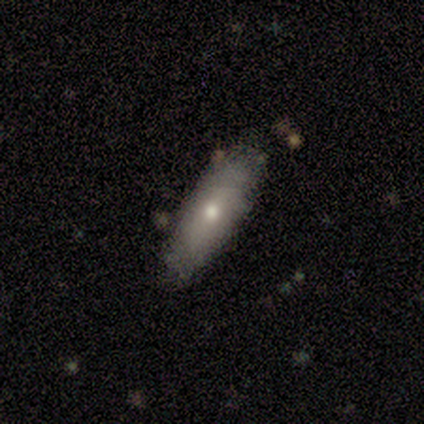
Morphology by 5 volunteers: smooth_or_featured: smooth (p=0.60) [alt: featured or disk p=0.40]
how_rounded: in between (p=1.00)
merging: none (p=1.00)